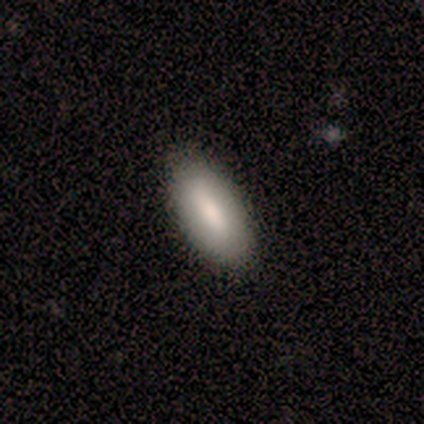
Smooth or featured? smooth (60%)
How rounded? in between (100%)
Merging? none (100%)